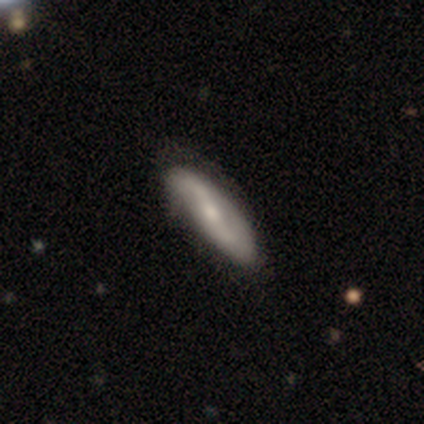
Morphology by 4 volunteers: A featured or disk galaxy (75%) with a weak bar (100%), 2 (67%) loose (67%) spiral arms (100%) and a small central bulge (67%).

Vote fractions:
- Smooth or featured? featured or disk: 75% / smooth: 25% / star or artifact: 0%
- Edge-on disk? no: 100% / yes: 0%
- Bar? weak: 100% / strong: 0% / no: 0%
- Spiral arms? yes: 100% / no: 0%
- Spiral winding? loose: 67% / medium: 33% / tight: 0%
- Spiral arm count? 2: 67% / can't tell: 33% / 1: 0% / 3: 0% / 4: 0% / more than 4: 0%
- Bulge size? small: 67% / moderate: 33% / dominant: 0% / large: 0% / none: 0%
- Merging? none: 50% / minor disturbance: 25% / merger: 25% / major disturbance: 0%